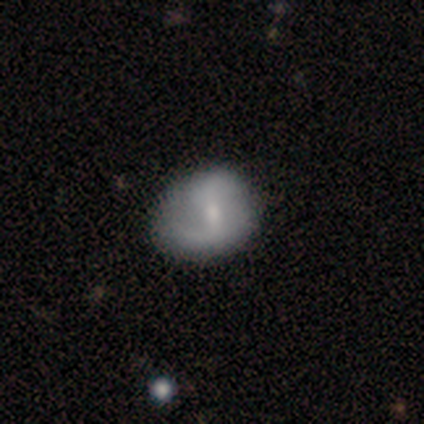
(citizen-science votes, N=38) featured or disk 84%, smooth 16%, star or artifact 0%. Down the decision tree: edge-on disk — no (94%); bar — strong (43%, tied with weak); spiral arms — yes (77%); spiral arm count — 2 (74%); spiral winding — medium (52%); bulge size — moderate (40%, tied with small); merging — none (39%).